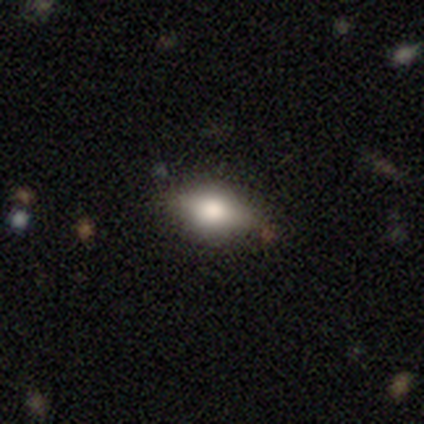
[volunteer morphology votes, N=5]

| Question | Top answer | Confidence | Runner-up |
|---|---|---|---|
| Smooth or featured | smooth | 60% | featured or disk (40%) |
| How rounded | in between | 100% | — |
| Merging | none | 100% | — |